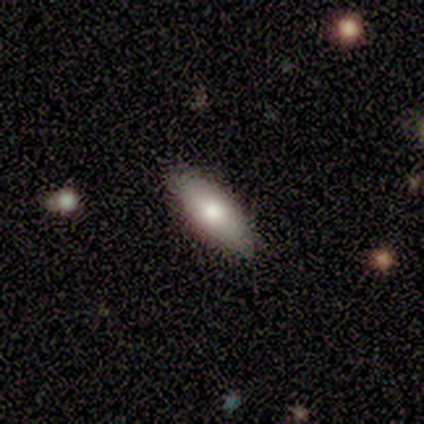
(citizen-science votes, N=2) smooth_or_featured: smooth (p=0.50) [tied with: featured or disk p=0.50]
how_rounded: in between (p=1.00)
merging: none (p=0.50) [tied with: minor disturbance p=0.50]